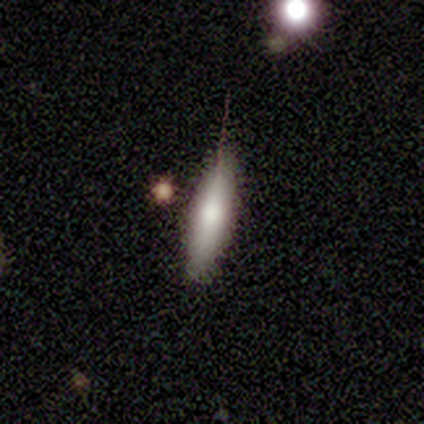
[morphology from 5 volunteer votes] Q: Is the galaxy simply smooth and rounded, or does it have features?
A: smooth — 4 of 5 (80%).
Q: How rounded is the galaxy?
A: cigar-shaped — 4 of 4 (100%).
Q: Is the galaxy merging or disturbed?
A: none — 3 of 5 (60%).